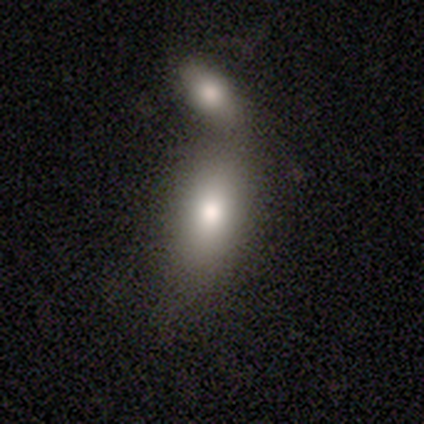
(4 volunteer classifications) A smooth galaxy with no disk features (50%, tied with featured or disk) that is in between round and cigar-shaped (100%).

Vote fractions:
- Smooth or featured? smooth: 50% (tied) / featured or disk: 50% (tied) / star or artifact: 0%
- How rounded? in between: 100% / round: 0% / cigar-shaped: 0%
- Merging? merger: 75% / none: 25% / minor disturbance: 0% / major disturbance: 0%